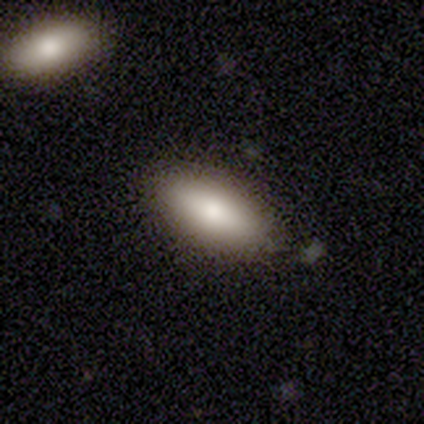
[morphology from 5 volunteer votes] Volunteers were most divided on "merging": none: 80%, major disturbance: 20%, minor disturbance: 0%, merger: 0%. More confident: smooth or featured — smooth (100%); how rounded — in between (100%).